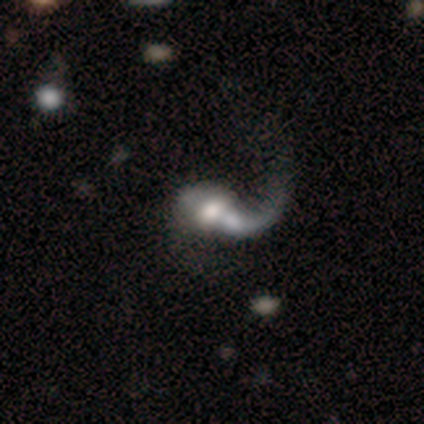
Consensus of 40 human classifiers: Morphology: type=featured or disk (72%); edge-on=no (93%); bar=no (70%); spiral arms=yes (81%); winding=loose (91%); arm count=1 (95%); bulge=moderate (48%); merging=major disturbance (43%).